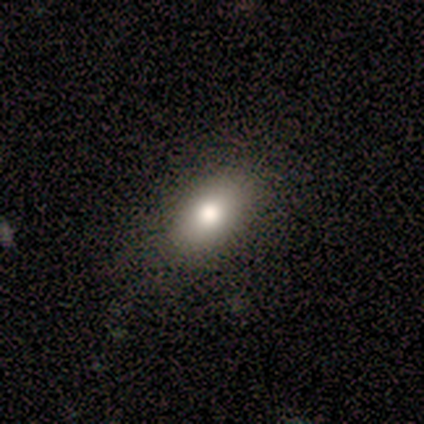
A smooth galaxy with no disk features (60%) that is in between round and cigar-shaped (100%). Merging: none (75%).